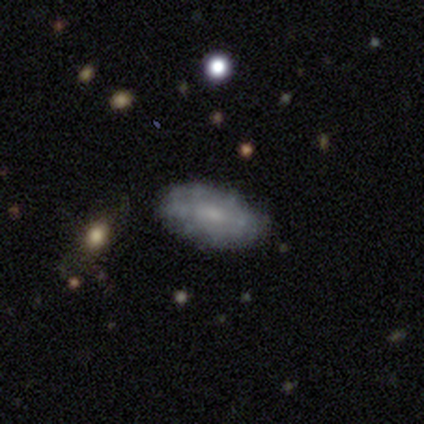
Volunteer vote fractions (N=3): Smooth or featured? 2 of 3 (67%) said smooth. How rounded? 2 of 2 (100%) said in between. Merging? 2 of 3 (67%) said none.